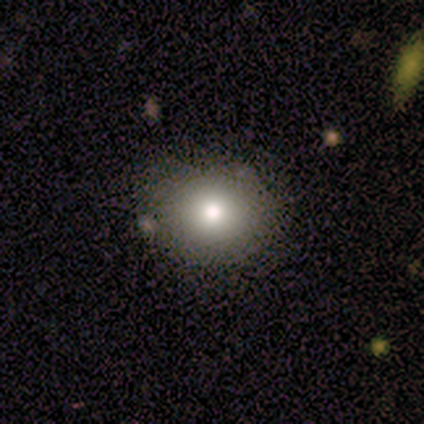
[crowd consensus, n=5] Smooth or featured: smooth — 60% (featured or disk — 20%)
How rounded: round — 100%
Merging: none — 75% (merger — 25%)